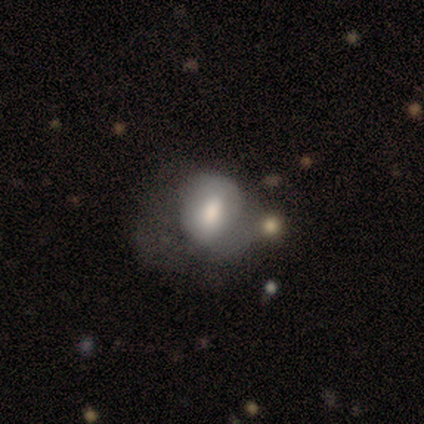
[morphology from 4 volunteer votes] Smooth or featured? 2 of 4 (50%, tied with featured or disk) said smooth. How rounded? 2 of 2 (100%) said in between. Merging? 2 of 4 (50%) said none.